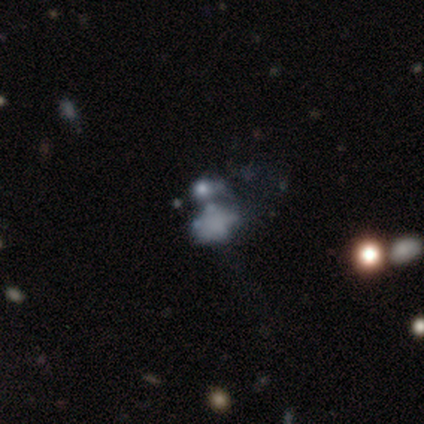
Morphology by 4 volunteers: smooth-or-featured: featured or disk: 75% | star or artifact: 25% | smooth: 0%
  disk-edge-on: no: 100% | yes: 0%
    bar: no: 100% | strong: 0% | weak: 0%
    has-spiral-arms: no: 100% | yes: 0%
    bulge-size: none: 67% | small: 33% | dominant: 0% | large: 0% | moderate: 0%
  merging: minor disturbance: 67% | merger: 33% | none: 0% | major disturbance: 0%